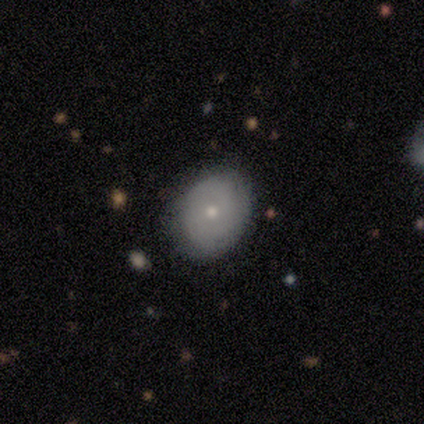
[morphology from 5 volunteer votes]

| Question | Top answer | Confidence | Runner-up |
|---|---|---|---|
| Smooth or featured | smooth | 100% | — |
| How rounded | round | 60% | in between (40%) |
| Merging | none | 100% | — |